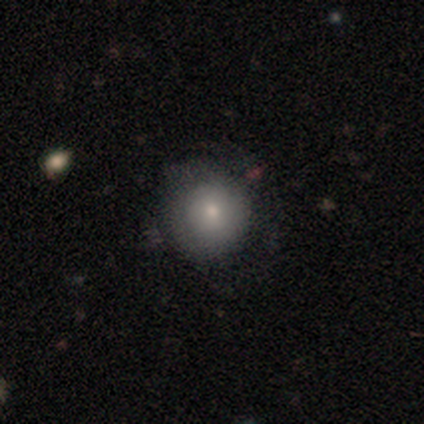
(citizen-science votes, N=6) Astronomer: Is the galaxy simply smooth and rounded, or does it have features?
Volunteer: smooth — 100%.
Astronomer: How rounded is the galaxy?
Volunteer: round — 83%.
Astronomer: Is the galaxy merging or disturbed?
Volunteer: minor disturbance — 67%.